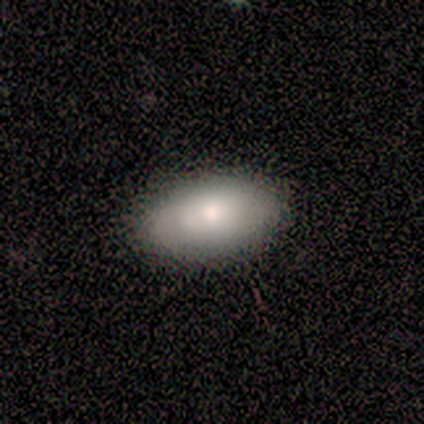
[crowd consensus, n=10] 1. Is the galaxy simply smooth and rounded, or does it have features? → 70% smooth, 20% star or artifact, 10% featured or disk.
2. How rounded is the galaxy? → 100% in between, 0% round, 0% cigar-shaped.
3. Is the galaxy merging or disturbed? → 100% none, 0% minor disturbance, 0% major disturbance, 0% merger.